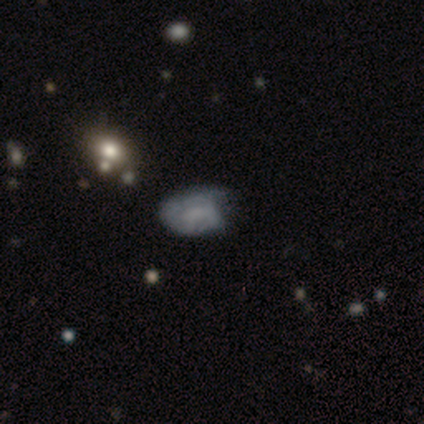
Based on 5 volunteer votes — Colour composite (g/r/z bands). It shows a featured or disk galaxy (80%) with no bar (100%), 1 (100%) tight (100%) spiral arms (67%) and no central bulge (100%). Merging: none (60%).